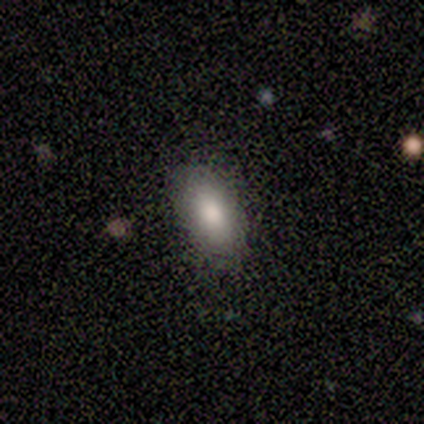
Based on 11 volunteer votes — Smooth or featured? 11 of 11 (100%) said smooth. How rounded? 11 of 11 (100%) said in between. Merging? 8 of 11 (73%) said none.